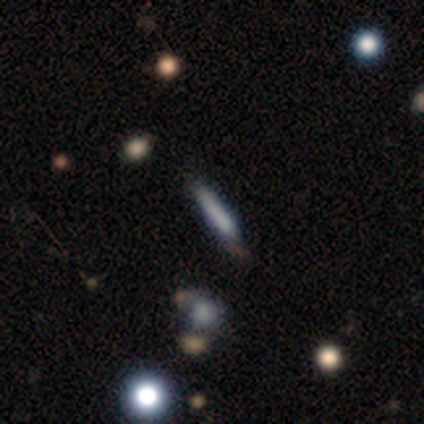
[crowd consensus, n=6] Smooth or featured: smooth — 67% (featured or disk — 17%)
How rounded: cigar-shaped — 100%
Merging: none — 60% (minor disturbance — 40%)